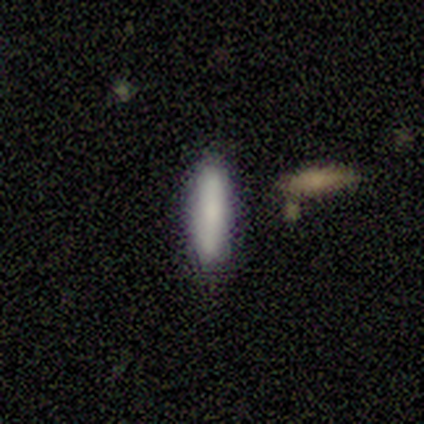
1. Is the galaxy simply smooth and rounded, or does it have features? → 80% smooth, 20% featured or disk, 0% star or artifact.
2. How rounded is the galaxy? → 100% cigar-shaped, 0% round, 0% in between.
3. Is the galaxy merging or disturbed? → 100% none, 0% minor disturbance, 0% major disturbance, 0% merger.